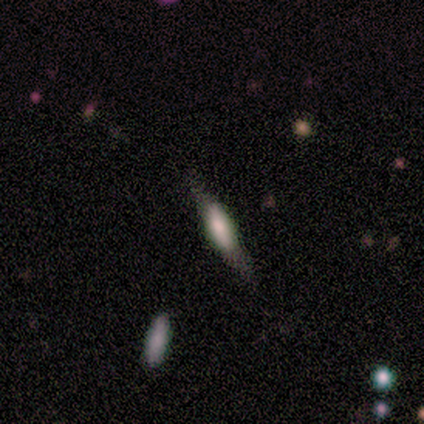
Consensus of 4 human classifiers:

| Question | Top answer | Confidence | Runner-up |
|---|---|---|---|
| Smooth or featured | smooth | 50% | tied: featured or disk (50%) |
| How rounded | cigar-shaped | 100% | — |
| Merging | none | 50% | tied: major disturbance (50%) |